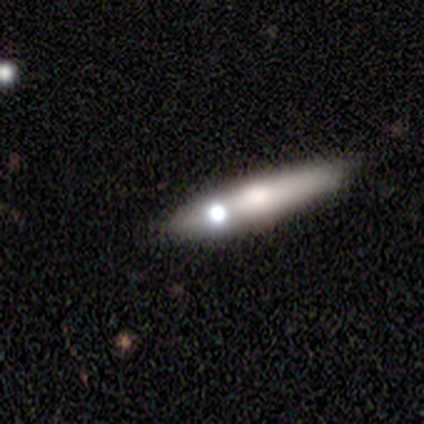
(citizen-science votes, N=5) Smooth or featured? 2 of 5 (40%, tied with star or artifact) said featured or disk. Edge-on disk? 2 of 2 (100%) said yes. Edge-on bulge? 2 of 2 (100%) said rounded. Merging? 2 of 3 (67%) said none.